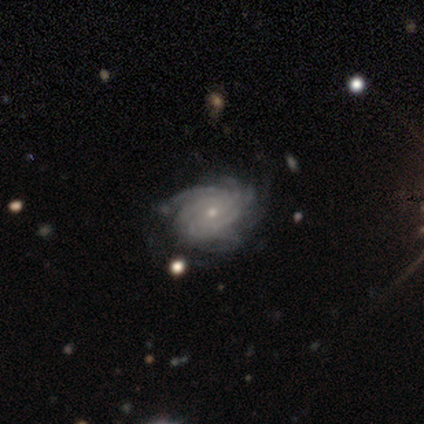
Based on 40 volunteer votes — Smooth or featured? featured or disk (98%)
Edge-on disk? no (100%)
Bar? no (77%)
Spiral arms? yes (100%)
Spiral winding? tight (69%)
Spiral arm count? more than 4 (54%)
Bulge size? small (82%)
Merging? none (78%)